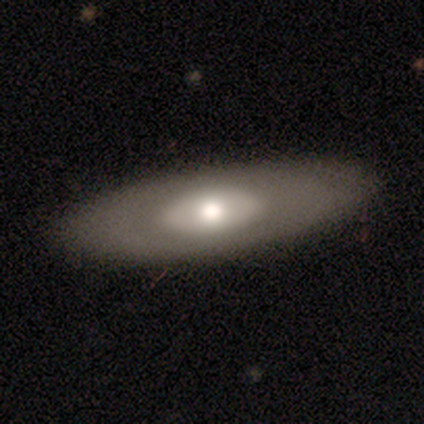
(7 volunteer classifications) Smooth or featured? 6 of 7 (86%) said featured or disk. Edge-on disk? 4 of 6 (67%) said no. Bar? 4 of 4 (100%) said no. Spiral arms? 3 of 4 (75%) said no. Bulge size? 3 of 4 (75%) said moderate. Merging? 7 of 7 (100%) said none.